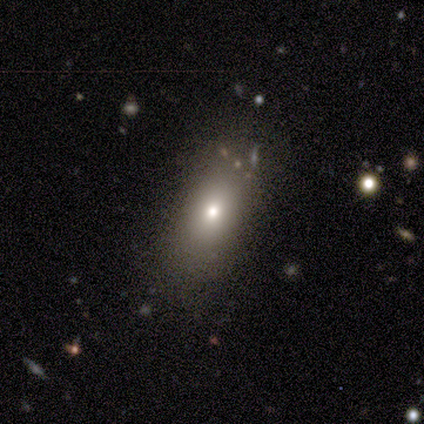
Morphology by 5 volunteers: Smooth or featured? 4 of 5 (80%) said smooth. How rounded? 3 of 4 (75%) said in between. Merging? 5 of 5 (100%) said none.